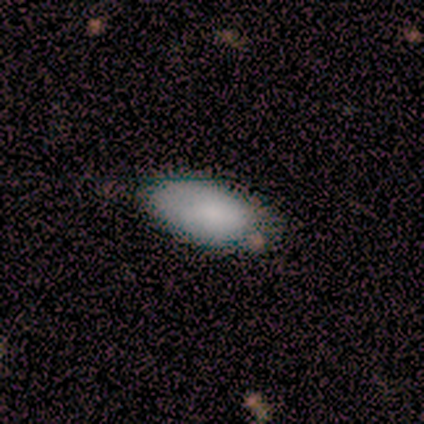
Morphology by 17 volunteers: This is clearly a smooth galaxy (94%). How rounded: clearly in between (100%). Merging: likely none (75%).